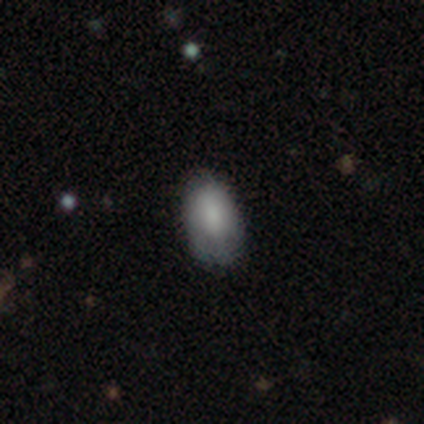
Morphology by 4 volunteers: Smooth or featured? smooth (100%)
How rounded? in between (100%)
Merging? none (75%)